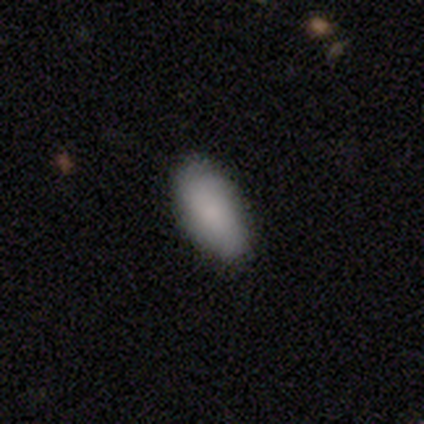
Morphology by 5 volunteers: A smooth galaxy with no disk features (100%) that is in between round and cigar-shaped (100%).

Vote fractions:
- Smooth or featured? smooth: 100% / featured or disk: 0% / star or artifact: 0%
- How rounded? in between: 100% / round: 0% / cigar-shaped: 0%
- Merging? none: 100% / minor disturbance: 0% / major disturbance: 0% / merger: 0%